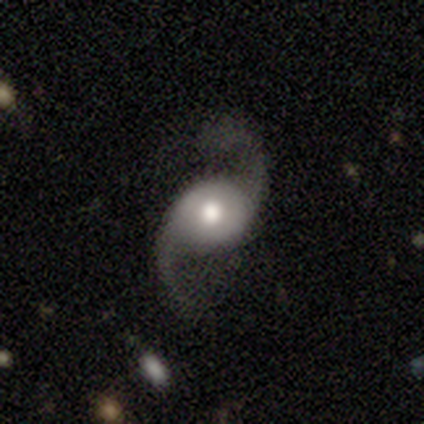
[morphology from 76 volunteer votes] Volunteers were most divided on "bulge size": moderate: 56%, large: 37%, dominant: 6%, small: 1%, none: 0%. More confident: edge-on disk — no (100%); spiral arms — yes (99%); spiral arm count — 2 (97%); smooth or featured — featured or disk (93%); spiral winding — loose (86%); bar — no (82%); merging — none (67%).